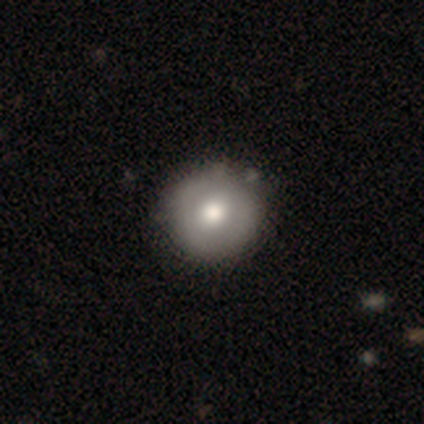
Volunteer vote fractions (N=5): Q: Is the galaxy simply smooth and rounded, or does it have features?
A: smooth — 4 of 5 (80%).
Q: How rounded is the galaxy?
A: round — 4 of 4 (100%).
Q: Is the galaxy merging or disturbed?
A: none — 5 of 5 (100%).